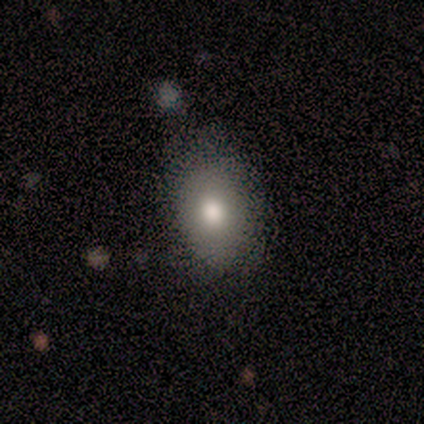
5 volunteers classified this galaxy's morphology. A smooth galaxy with no disk features (100%) that is in between round and cigar-shaped (60%). Merging: none (80%).